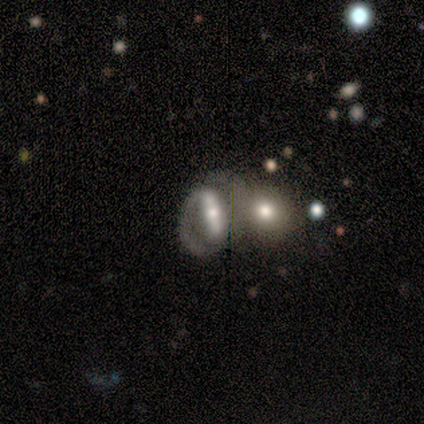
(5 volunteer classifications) Smooth or featured: featured or disk — 100%
Edge-on disk: yes — 60% (no — 40%)
Edge-on bulge: rounded — 100%
Merging: merger — 60% (none — 20%)